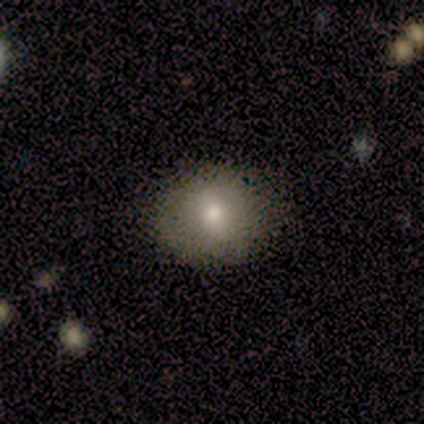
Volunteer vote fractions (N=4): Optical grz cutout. It shows a smooth galaxy with no disk features (75%) that is round (67%). Merging: none (100%).